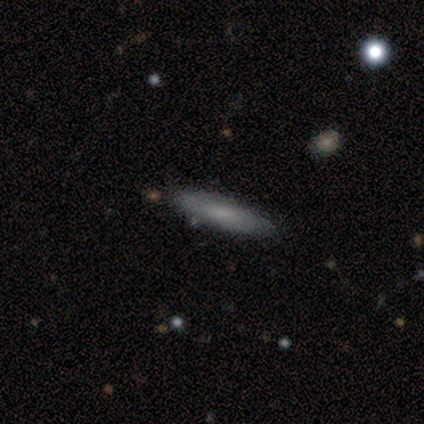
smooth-or-featured: smooth: 80% | featured or disk: 20% | star or artifact: 0%
  how-rounded: cigar-shaped: 100% | round: 0% | in between: 0%
  merging: none: 80% | minor disturbance: 20% | major disturbance: 0% | merger: 0%